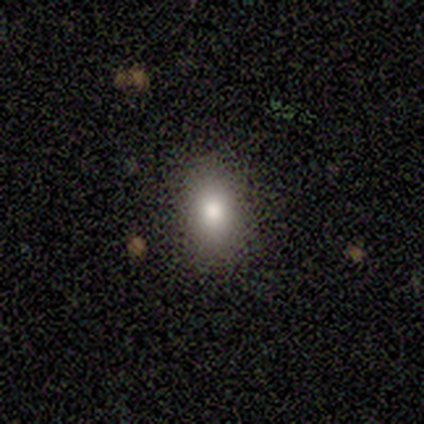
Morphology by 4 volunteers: smooth_or_featured: smooth (p=1.00)
how_rounded: in between (p=0.75) [alt: round p=0.25]
merging: none (p=0.75) [alt: minor disturbance p=0.25]